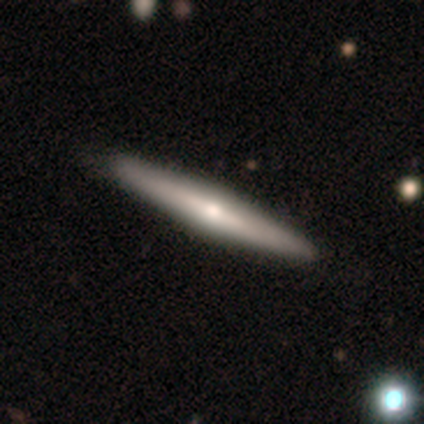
Volunteers were most divided on "smooth or featured": featured or disk: 69%, smooth: 29%, star or artifact: 2%. More confident: edge-on disk — yes (100%); edge-on bulge — rounded (97%); merging — none (90%).